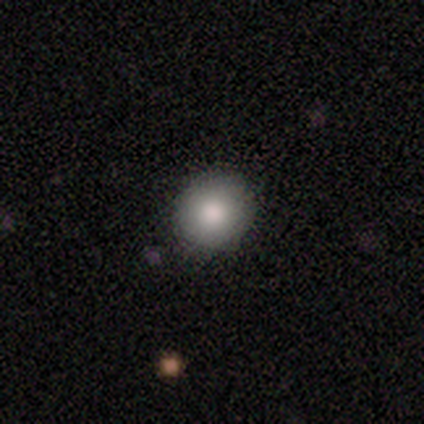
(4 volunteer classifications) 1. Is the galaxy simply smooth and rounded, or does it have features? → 100% smooth, 0% featured or disk, 0% star or artifact.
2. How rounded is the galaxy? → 100% round, 0% in between, 0% cigar-shaped.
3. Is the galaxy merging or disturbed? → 100% none, 0% minor disturbance, 0% major disturbance, 0% merger.